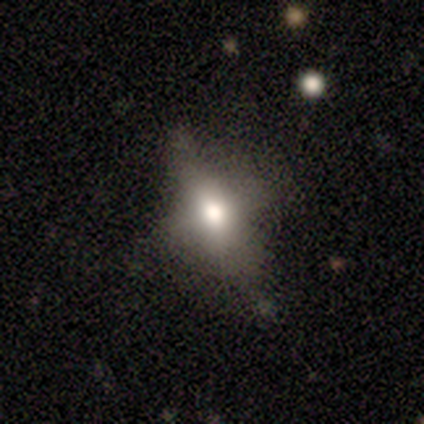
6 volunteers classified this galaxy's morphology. Smooth or featured? 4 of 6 (67%) said smooth. How rounded? 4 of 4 (100%) said in between. Merging? 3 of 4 (75%) said none.